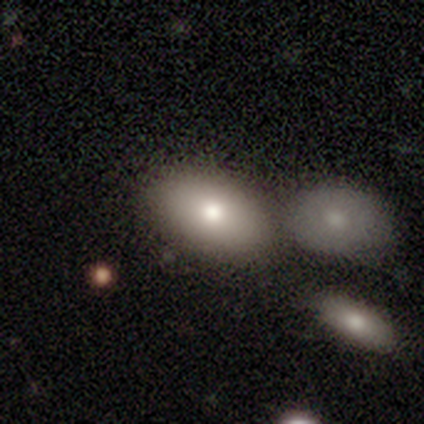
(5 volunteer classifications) Q: Smooth or featured?
A: smooth (80%); runner-up: featured or disk (20%)
Q: How rounded?
A: in between (100%)
Q: Merging?
A: none (100%)